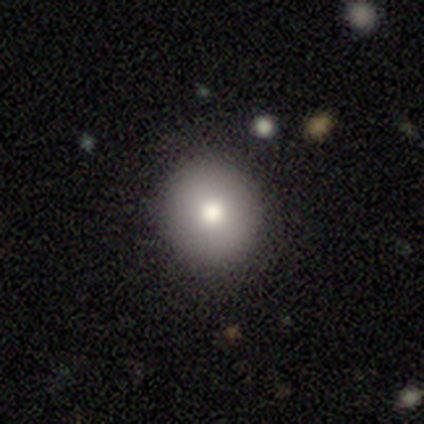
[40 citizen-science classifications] Volunteers were most divided on "smooth or featured": smooth: 82%, featured or disk: 10%, star or artifact: 8%. More confident: how rounded — round (97%); merging — none (89%).